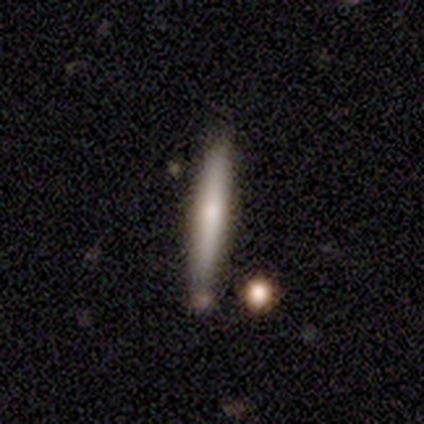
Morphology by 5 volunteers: Volunteers were most divided on "smooth or featured": smooth: 60%, featured or disk: 40%, star or artifact: 0%. More confident: how rounded — cigar-shaped (100%); merging — none (60%).